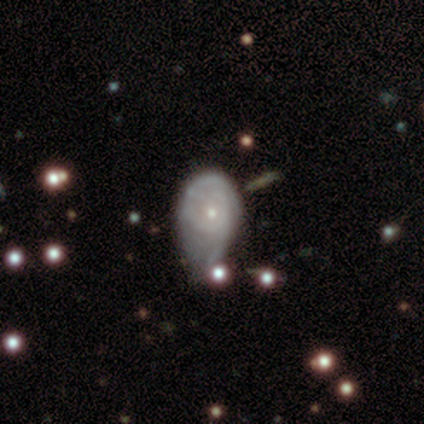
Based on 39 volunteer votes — Smooth or featured? featured or disk (72%)
Edge-on disk? no (100%)
Bar? no (93%)
Spiral arms? yes (71%)
Spiral winding? tight (60%)
Spiral arm count? can't tell (40%)
Bulge size? small (75%)
Merging? minor disturbance (41%, tied with major disturbance)